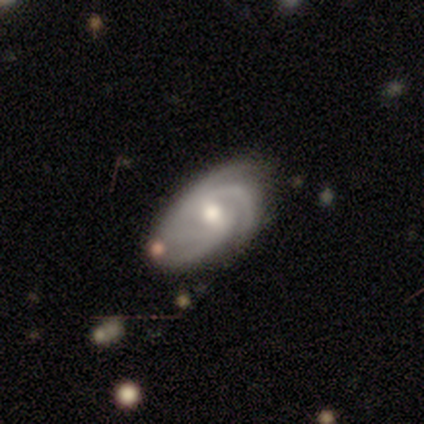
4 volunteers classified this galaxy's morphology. Volunteers were most divided on "spiral arm count": can't tell: 50%, 3: 25%, 4: 25%, 1: 0%, 2: 0%, more than 4: 0%. More confident: smooth or featured — featured or disk (100%); edge-on disk — no (100%); spiral arms — yes (100%); bulge size — moderate (100%); merging — none (100%); bar — weak (75%); spiral winding — tight (75%).